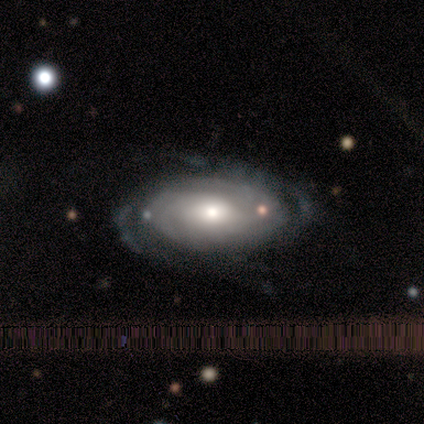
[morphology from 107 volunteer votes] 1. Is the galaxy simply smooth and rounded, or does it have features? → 80% featured or disk, 17% smooth, 3% star or artifact.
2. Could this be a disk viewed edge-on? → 98% no, 2% yes.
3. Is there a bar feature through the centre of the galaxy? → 80% no, 19% weak, 1% strong.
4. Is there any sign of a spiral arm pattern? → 95% yes, 5% no.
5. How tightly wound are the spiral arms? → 69% tight, 22% medium, 9% loose.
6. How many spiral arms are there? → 41% can't tell, 40% 2, 8% 3, 5% more than 4, 4% 4, 2% 1.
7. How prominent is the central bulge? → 58% moderate, 21% large, 18% small, 2% dominant, 0% none.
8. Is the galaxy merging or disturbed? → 62% none, 24% minor disturbance, 14% major disturbance, 0% merger.